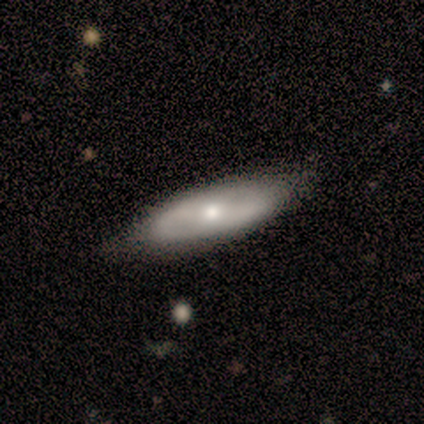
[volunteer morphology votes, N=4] Volunteers were most divided on "edge-on disk": yes: 75%, no: 25%. More confident: smooth or featured — featured or disk (100%); edge-on bulge — rounded (100%); merging — none (100%).